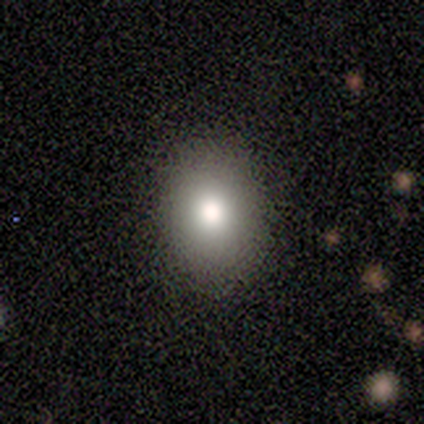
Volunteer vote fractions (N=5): A smooth galaxy with no disk features (100%) that is in between round and cigar-shaped (80%).

Vote fractions:
- Smooth or featured? smooth: 100% / featured or disk: 0% / star or artifact: 0%
- How rounded? in between: 80% / round: 20% / cigar-shaped: 0%
- Merging? none: 100% / minor disturbance: 0% / major disturbance: 0% / merger: 0%